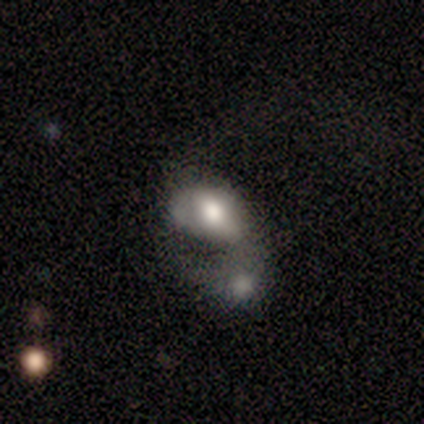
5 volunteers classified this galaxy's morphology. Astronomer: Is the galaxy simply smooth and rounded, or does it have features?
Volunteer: smooth — 80%.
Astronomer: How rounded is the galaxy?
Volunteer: in between — 50%.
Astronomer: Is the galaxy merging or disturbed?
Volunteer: merger — 80%.